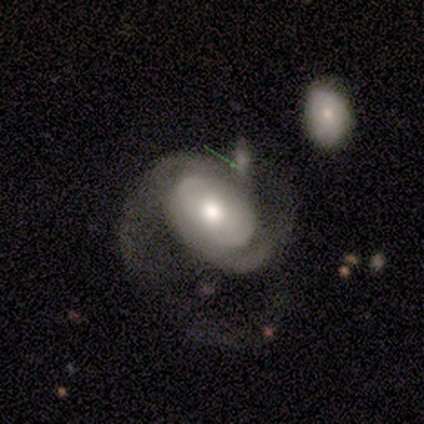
Morphology: type=featured or disk (73%); edge-on=no (100%); bar=no (78%); spiral arms=yes (88%); winding=medium (54%); arm count=2 (86%); bulge=moderate (75%); merging=major disturbance (61%).